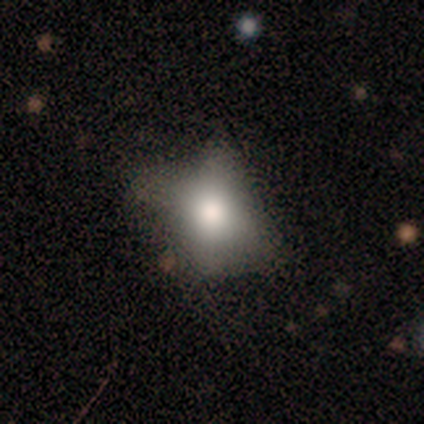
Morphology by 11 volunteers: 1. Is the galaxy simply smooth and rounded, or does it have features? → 55% smooth, 36% star or artifact, 9% featured or disk.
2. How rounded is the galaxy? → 83% in between, 17% round, 0% cigar-shaped.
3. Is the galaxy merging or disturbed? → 43% none, 29% major disturbance, 14% minor disturbance, 14% merger.